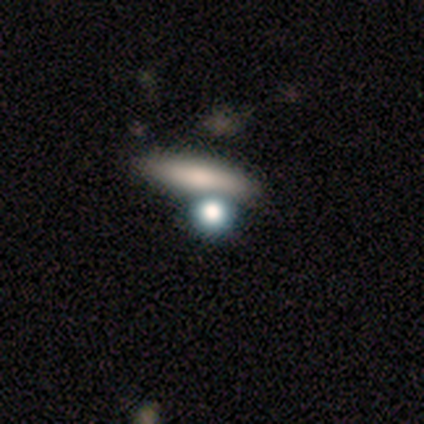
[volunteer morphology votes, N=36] smooth-or-featured: smooth: 72% | featured or disk: 19% | star or artifact: 8%
  how-rounded: cigar-shaped: 46% | round: 38% | in between: 15%
  merging: none: 70% | merger: 24% | minor disturbance: 3% | major disturbance: 3%